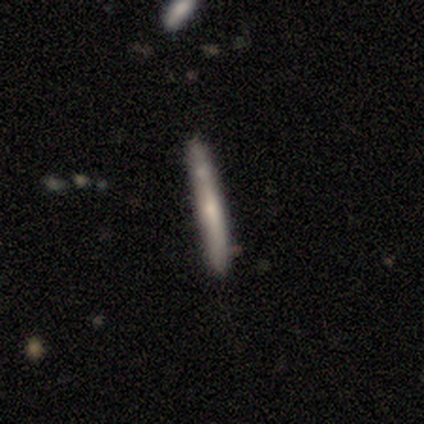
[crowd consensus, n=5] smooth 60%, featured or disk 40%, star or artifact 0%. Down the decision tree: how rounded — cigar-shaped (100%); merging — none (80%).